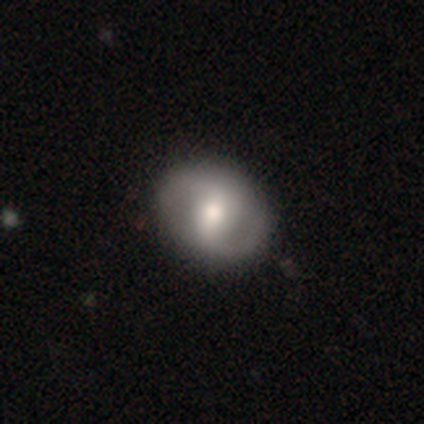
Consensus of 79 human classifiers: Volunteers were most divided on "bar": weak: 45%, strong: 36%, no: 19%. Remaining: edge-on disk — no (96%); spiral arm count — 2 (87%); spiral arms — yes (85%); bulge size — moderate (72%); smooth or featured — featured or disk (70%); spiral winding — medium (51%); merging — none (47%).